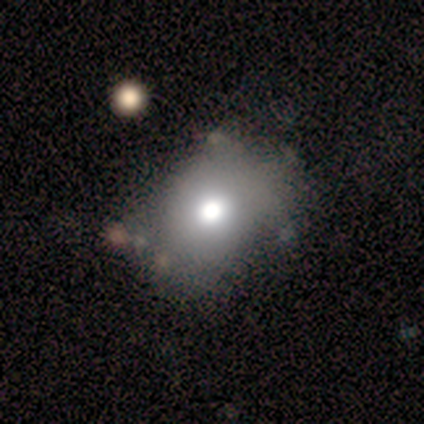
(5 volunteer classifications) A smooth galaxy with no disk features (80%) that is in between round and cigar-shaped (100%). Merging: none (40%, tied with minor disturbance).